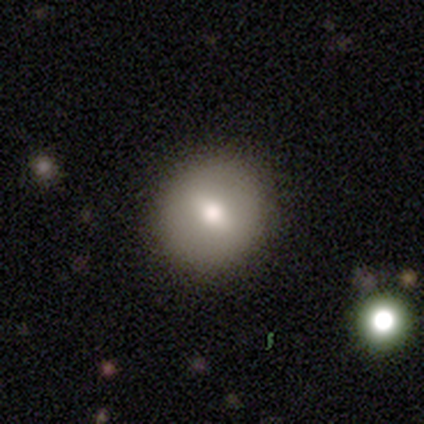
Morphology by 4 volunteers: A smooth galaxy with no disk features (100%) that is round (100%).

Vote fractions:
- Smooth or featured? smooth: 100% / featured or disk: 0% / star or artifact: 0%
- How rounded? round: 100% / in between: 0% / cigar-shaped: 0%
- Merging? none: 100% / minor disturbance: 0% / major disturbance: 0% / merger: 0%